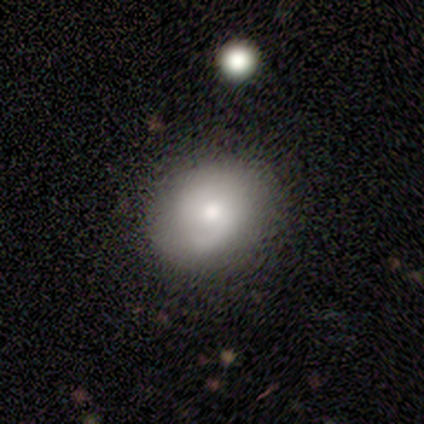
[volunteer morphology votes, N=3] This is clearly a smooth galaxy (100%). How rounded: likely round (67%). Merging: clearly none (100%).